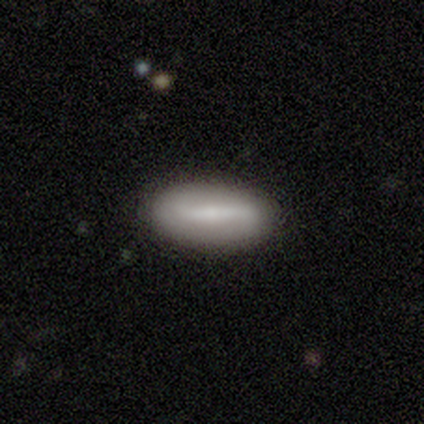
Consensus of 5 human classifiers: smooth-or-featured: featured or disk: 80% | smooth: 20% | star or artifact: 0%
  disk-edge-on: no: 75% | yes: 25%
    bar: strong: 67% | weak: 33% | no: 0%
    has-spiral-arms: no: 100% | yes: 0%
    bulge-size: moderate: 33% (tied) | small: 33% (tied) | none: 33% (tied) | dominant: 0% | large: 0%
  merging: none: 100% | minor disturbance: 0% | major disturbance: 0% | merger: 0%